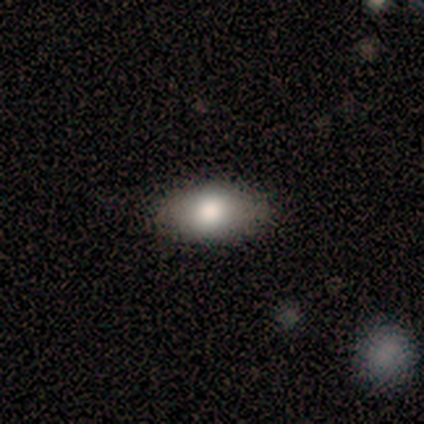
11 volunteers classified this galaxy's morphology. A smooth galaxy with no disk features (91%) that is in between round and cigar-shaped (100%).

Vote fractions:
- Smooth or featured? smooth: 91% / featured or disk: 9% / star or artifact: 0%
- How rounded? in between: 100% / round: 0% / cigar-shaped: 0%
- Merging? none: 100% / minor disturbance: 0% / major disturbance: 0% / merger: 0%